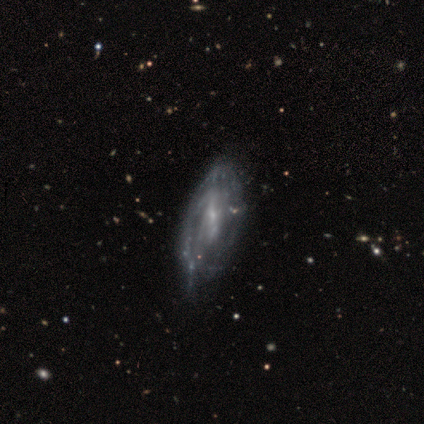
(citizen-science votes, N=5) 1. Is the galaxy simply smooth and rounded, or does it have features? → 100% featured or disk, 0% smooth, 0% star or artifact.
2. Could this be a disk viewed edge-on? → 100% no, 0% yes.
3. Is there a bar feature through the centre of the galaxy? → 60% weak, 40% strong, 0% no.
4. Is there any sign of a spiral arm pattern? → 80% yes, 20% no.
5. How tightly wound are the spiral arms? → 75% medium, 25% tight, 0% loose.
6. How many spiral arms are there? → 75% can't tell, 25% 3, 0% 1, 0% 2, 0% 4, 0% more than 4.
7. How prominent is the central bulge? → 100% small, 0% dominant, 0% large, 0% moderate, 0% none.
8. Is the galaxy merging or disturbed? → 60% none, 20% major disturbance, 20% merger, 0% minor disturbance.